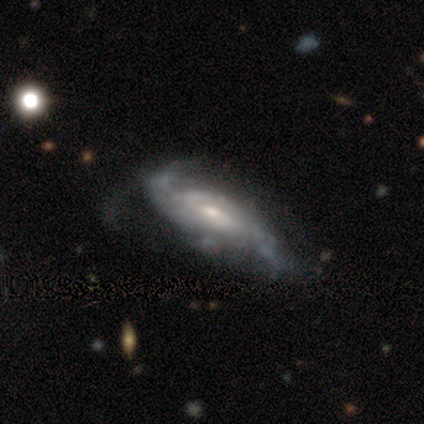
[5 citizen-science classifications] This is clearly a featured or disk galaxy (100%). It is clearly not viewed edge-on (100%). Bar: likely no (60%). Spiral arm pattern: clearly yes (100%). Spiral arm count: likely 2 (60%). Spiral winding: marginally tight (40%, tied with medium). Central bulge: likely small (60%). Merging: marginally none (40%, tied with minor disturbance).